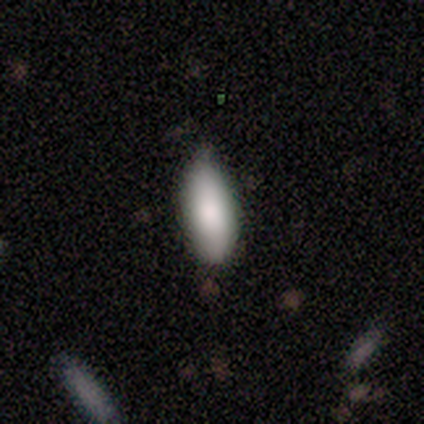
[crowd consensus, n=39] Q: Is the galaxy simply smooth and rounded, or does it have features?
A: smooth — 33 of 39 (85%).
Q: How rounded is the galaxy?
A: in between — 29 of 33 (88%).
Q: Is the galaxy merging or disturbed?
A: none — 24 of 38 (63%).